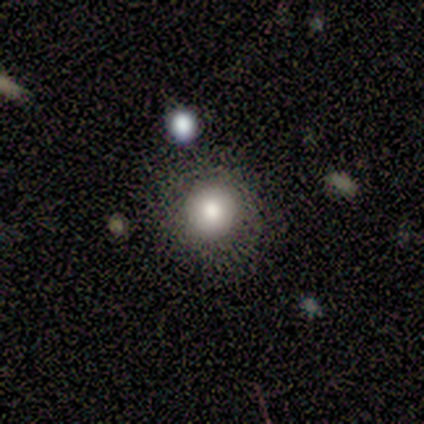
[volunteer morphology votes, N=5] smooth_or_featured: smooth (p=0.60) [alt: featured or disk p=0.40]
how_rounded: round (p=0.67) [alt: in between p=0.33]
merging: none (p=1.00)